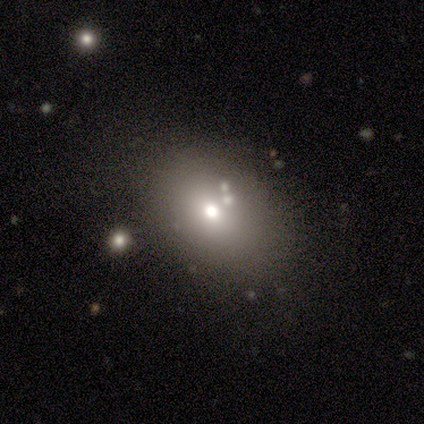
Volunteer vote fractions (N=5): A smooth galaxy with no disk features (100%) that is in between round and cigar-shaped (80%). Merging: none (80%).